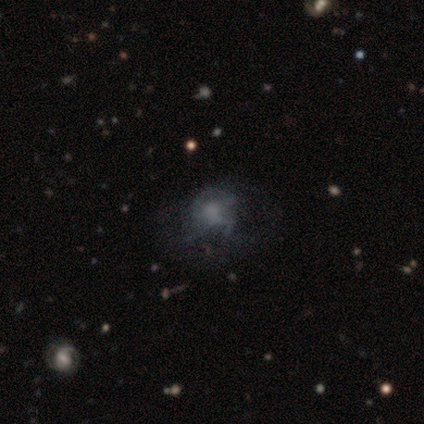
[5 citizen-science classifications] featured or disk 60%, smooth 40%, star or artifact 0%. Down the decision tree: edge-on disk — no (100%); bar — no (67%); spiral arms — no (67%); bulge size — none (67%); merging — none (40%, tied with major disturbance).